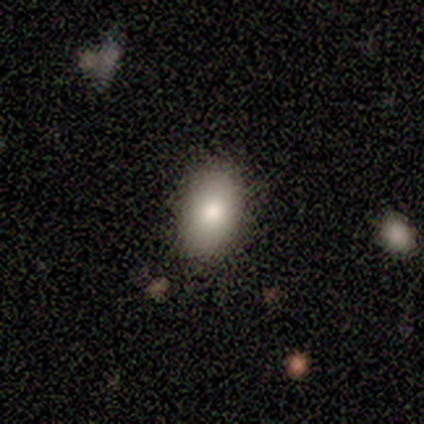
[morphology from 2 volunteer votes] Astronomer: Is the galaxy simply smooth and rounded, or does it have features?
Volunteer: smooth — 100%.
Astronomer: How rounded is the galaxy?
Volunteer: in between — 100%.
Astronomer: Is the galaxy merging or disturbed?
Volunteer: none — 100%.